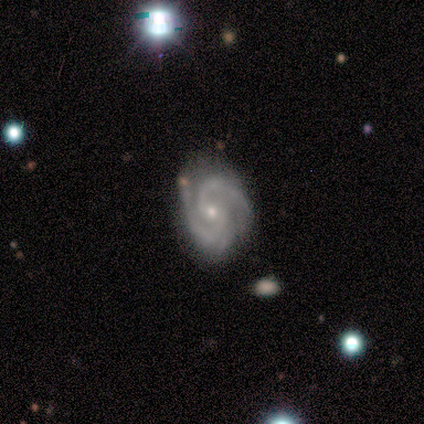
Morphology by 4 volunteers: Volunteers were most divided on "bar": no: 75%, weak: 25%, strong: 0%. More confident: smooth or featured — featured or disk (100%); edge-on disk — no (100%); spiral arms — yes (100%); bulge size — small (100%); spiral winding — tight (75%); spiral arm count — 2 (75%); merging — none (75%).